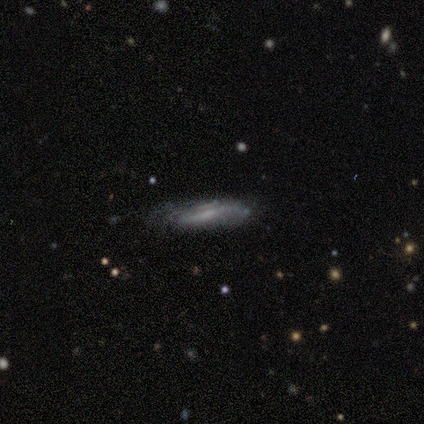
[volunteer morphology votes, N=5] type=smooth (60%); roundness=cigar-shaped (100%); merging=none (40%, tied with minor disturbance).